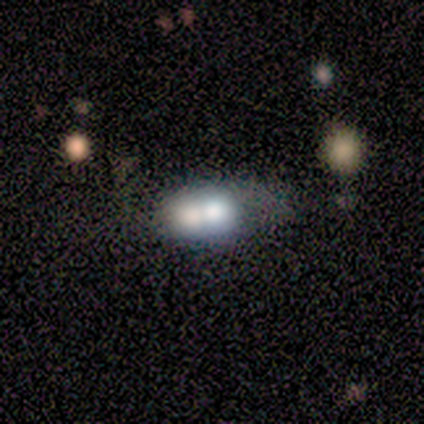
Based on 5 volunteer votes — smooth_or_featured: featured or disk (p=0.60) [alt: smooth p=0.40]
disk_edge_on: no (p=0.67) [alt: yes p=0.33]
bar: no (p=1.00)
has_spiral_arms: no (p=1.00)
bulge_size: dominant (p=0.50) [tied with: small p=0.50]
merging: merger (p=0.40) [alt: none p=0.20]